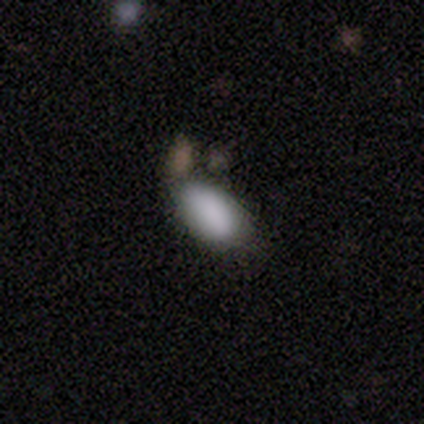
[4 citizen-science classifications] A smooth galaxy with no disk features (100%) that is in between round and cigar-shaped (100%).

Vote fractions:
- Smooth or featured? smooth: 100% / featured or disk: 0% / star or artifact: 0%
- How rounded? in between: 100% / round: 0% / cigar-shaped: 0%
- Merging? minor disturbance: 50% / none: 25% / merger: 25% / major disturbance: 0%